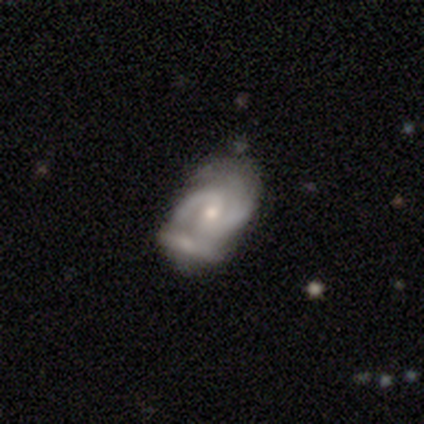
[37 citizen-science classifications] Overall: featured or disk (86%). Edge-on disk: no (100%). Bar: weak (47%; no 41%). Spiral arms: yes (97%). Spiral arm count: 2 (87%). Spiral winding: medium (52%; tight 35%). Bulge size: small (59%; moderate 41%). Merging: none (50%; merger 31%).